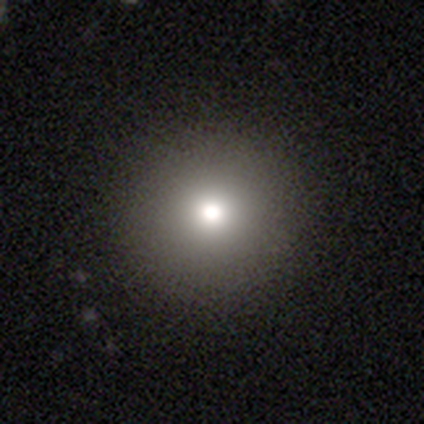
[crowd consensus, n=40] Overall: smooth (65%; star or artifact 28%). How rounded: round (100%). Merging: none (86%).